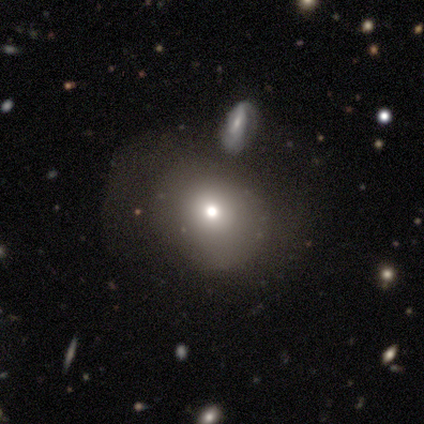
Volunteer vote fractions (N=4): Morphology: type=smooth (50%, tied with star or artifact); roundness=round (100%); merging=minor disturbance (50%, tied with merger).